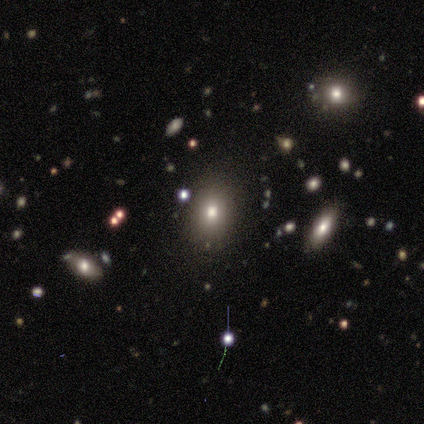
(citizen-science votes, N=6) A smooth galaxy with no disk features (83%) that is round (60%). Merging: none (100%).